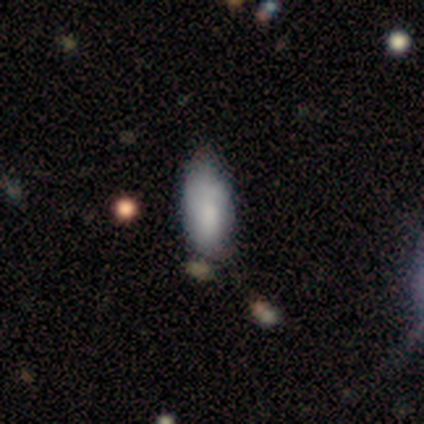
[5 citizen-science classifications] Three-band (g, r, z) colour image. It shows a smooth galaxy with no disk features (100%) that is in between round and cigar-shaped (80%). Merging: none (60%).